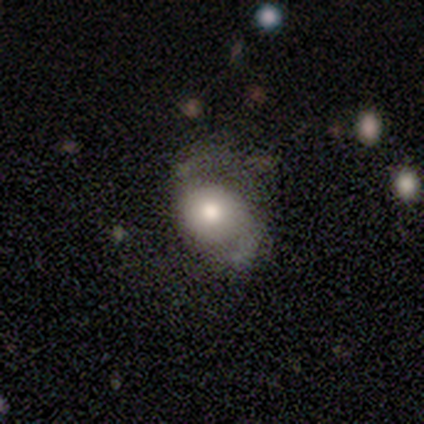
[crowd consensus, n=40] This appears to be a smooth galaxy with no disk features (48%) that is round (53%). Merging: none (44%).